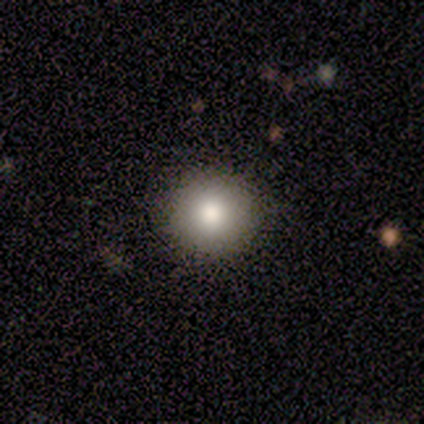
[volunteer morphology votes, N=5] type=smooth (100%); roundness=round (100%); merging=none (100%).